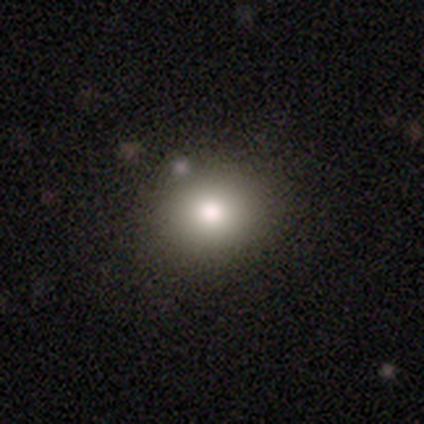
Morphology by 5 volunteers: A smooth galaxy with no disk features (100%) that is round (80%).

Vote fractions:
- Smooth or featured? smooth: 100% / featured or disk: 0% / star or artifact: 0%
- How rounded? round: 80% / in between: 20% / cigar-shaped: 0%
- Merging? none: 100% / minor disturbance: 0% / major disturbance: 0% / merger: 0%